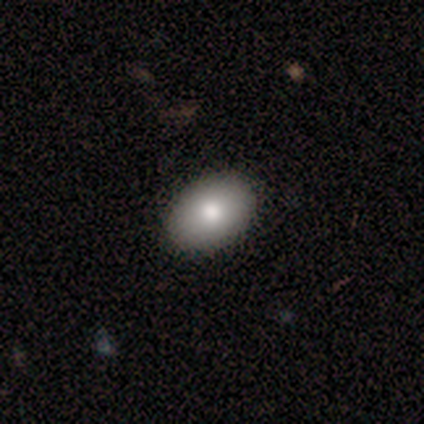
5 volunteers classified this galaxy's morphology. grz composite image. It shows a smooth galaxy with no disk features (100%) that is in between round and cigar-shaped (100%). Merging: none (80%).